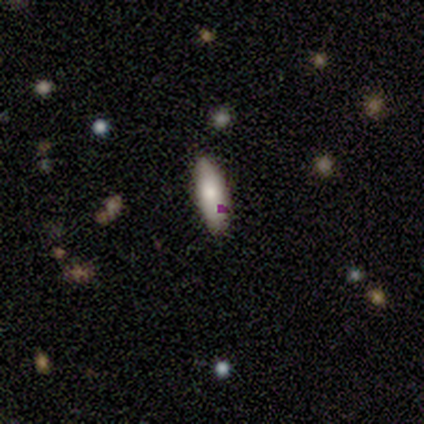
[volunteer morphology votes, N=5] smooth-or-featured: smooth: 80% | star or artifact: 20% | featured or disk: 0%
  how-rounded: in between: 50% (tied) | cigar-shaped: 50% (tied) | round: 0%
  merging: none: 50% (tied) | minor disturbance: 50% (tied) | major disturbance: 0% | merger: 0%